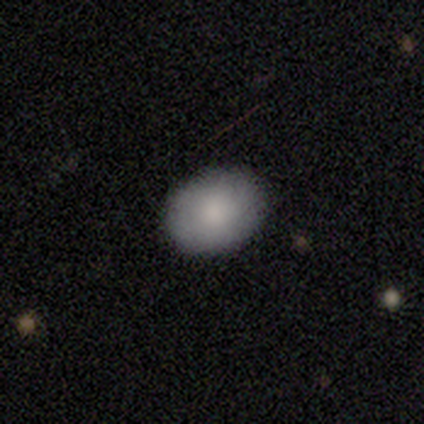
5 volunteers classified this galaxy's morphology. type=smooth (80%); roundness=in between (75%); merging=none (80%).